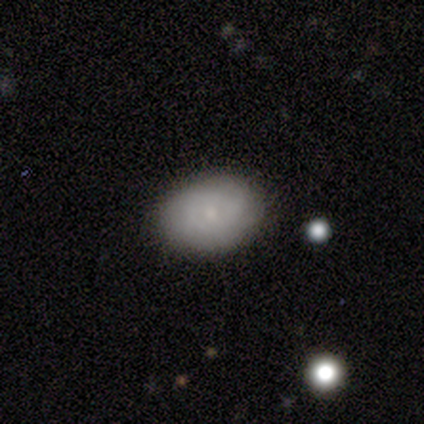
Volunteers were most divided on "how rounded" (2-way tie): round: 50%, in between: 50%, cigar-shaped: 0%. More confident: merging — none (86%); smooth or featured — smooth (57%).